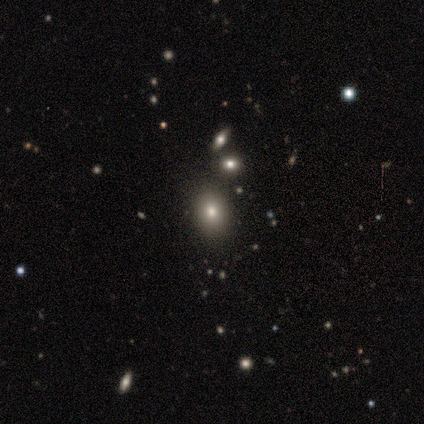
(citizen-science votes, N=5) smooth-or-featured: smooth: 80% | star or artifact: 20% | featured or disk: 0%
  how-rounded: round: 50% (tied) | in between: 50% (tied) | cigar-shaped: 0%
  merging: none: 50% | minor disturbance: 25% | merger: 25% | major disturbance: 0%